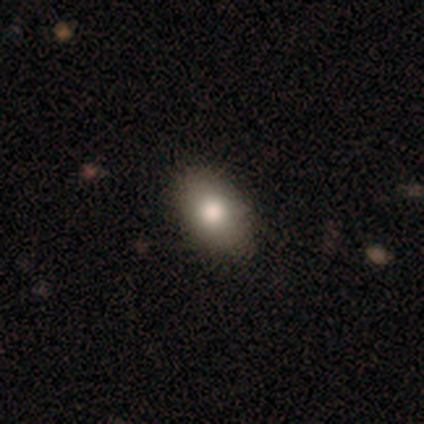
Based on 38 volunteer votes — smooth_or_featured: smooth (p=0.76) [alt: star or artifact p=0.13]
how_rounded: in between (p=0.86) [alt: round p=0.14]
merging: none (p=0.85) [alt: minor disturbance p=0.12]